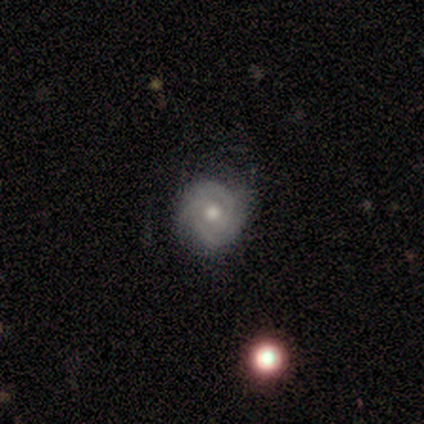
smooth-or-featured: featured or disk: 100% | smooth: 0% | star or artifact: 0%
  disk-edge-on: no: 100% | yes: 0%
    bar: no: 75% | weak: 25% | strong: 0%
    has-spiral-arms: yes: 100% | no: 0%
      spiral-winding: tight: 100% | medium: 0% | loose: 0%
      spiral-arm-count: 3: 50% | can't tell: 38% | 2: 12% | 1: 0% | 4: 0% | more than 4: 0%
    bulge-size: moderate: 88% | large: 12% | dominant: 0% | small: 0% | none: 0%
  merging: none: 88% | minor disturbance: 12% | major disturbance: 0% | merger: 0%